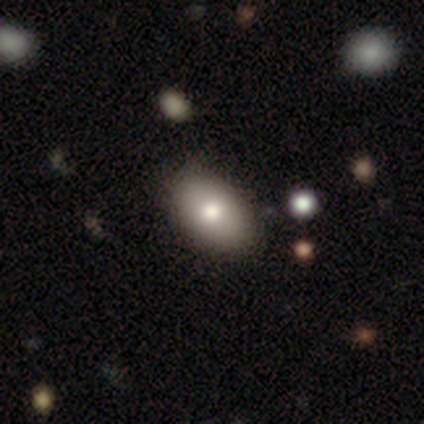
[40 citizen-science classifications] This appears to be a smooth galaxy with no disk features (92%) that is in between round and cigar-shaped (89%). Merging: none (68%).